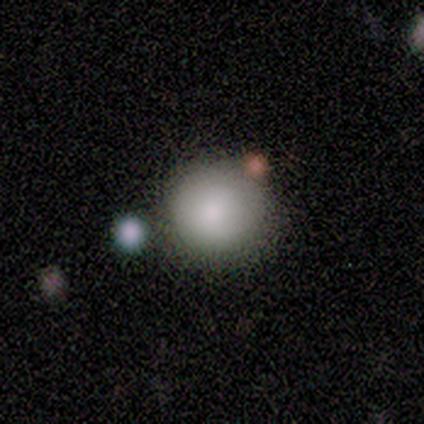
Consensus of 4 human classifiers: Overall: smooth (75%). How rounded: round (100%). Merging: none (100%).